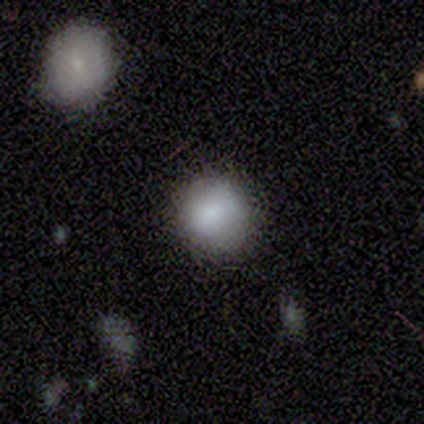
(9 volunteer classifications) This appears to be a smooth galaxy with no disk features (78%) that is round (71%). Merging: none (71%).